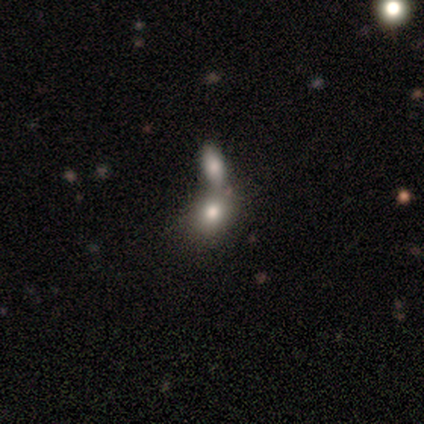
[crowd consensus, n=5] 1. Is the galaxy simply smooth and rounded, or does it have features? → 100% smooth, 0% featured or disk, 0% star or artifact.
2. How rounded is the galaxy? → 60% in between, 40% round, 0% cigar-shaped.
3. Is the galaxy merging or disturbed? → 60% none, 40% merger, 0% minor disturbance, 0% major disturbance.